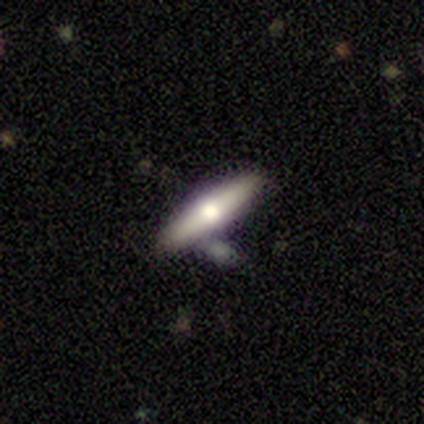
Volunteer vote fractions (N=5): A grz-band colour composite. It shows a smooth galaxy with no disk features (40%, tied with featured or disk) that is in between round and cigar-shaped (50%, tied with cigar-shaped). Merging: none (75%).